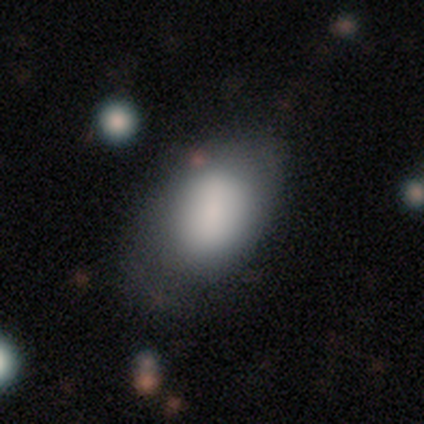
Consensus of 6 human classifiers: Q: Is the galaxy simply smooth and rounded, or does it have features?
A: smooth — 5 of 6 (83%).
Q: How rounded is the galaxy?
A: in between — 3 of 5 (60%).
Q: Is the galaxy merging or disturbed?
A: none — 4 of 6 (67%).